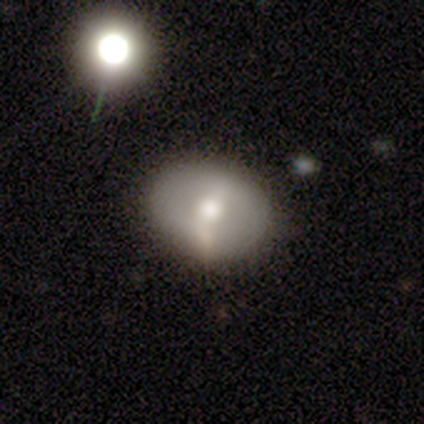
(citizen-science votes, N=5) Smooth or featured: smooth — 40% (tied with featured or disk — 40%)
How rounded: round — 50% (tied with in between — 50%)
Merging: none — 50% (tied with minor disturbance — 50%)